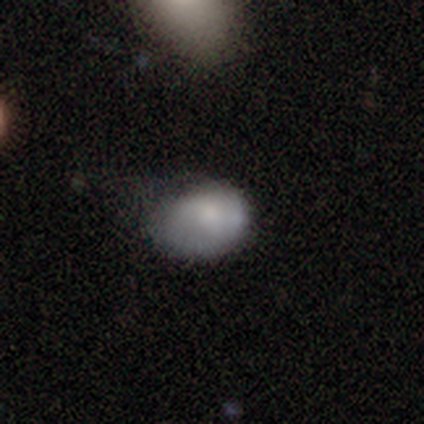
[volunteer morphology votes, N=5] Volunteers were most divided on "how rounded": round: 75%, in between: 25%, cigar-shaped: 0%. More confident: smooth or featured — smooth (80%); merging — minor disturbance (80%).